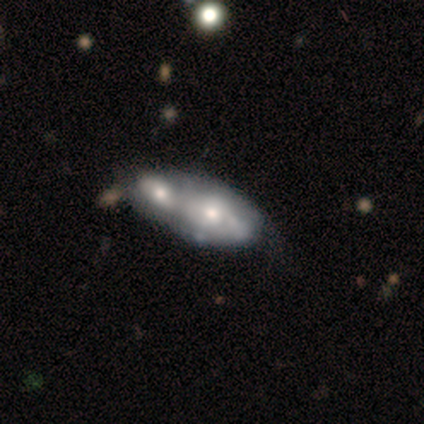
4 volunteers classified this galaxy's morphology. Smooth or featured?
  - smooth: 75% *
  - featured or disk: 25%
  - star or artifact: 0%
How rounded?
  - in between: 100% *
  - round: 0%
  - cigar-shaped: 0%
Merging?
  - merger: 75% *
  - minor disturbance: 25%
  - none: 0%
  - major disturbance: 0%